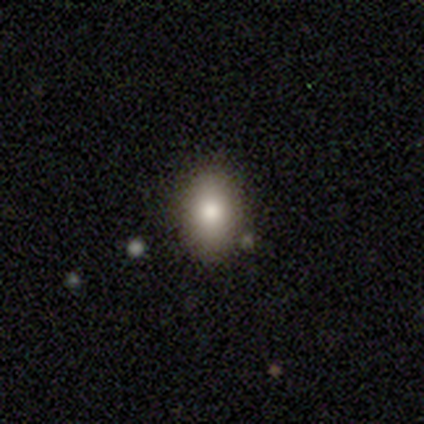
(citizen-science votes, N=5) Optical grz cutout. It shows a smooth galaxy with no disk features (60%) that is in between round and cigar-shaped (100%). Merging: none (100%).